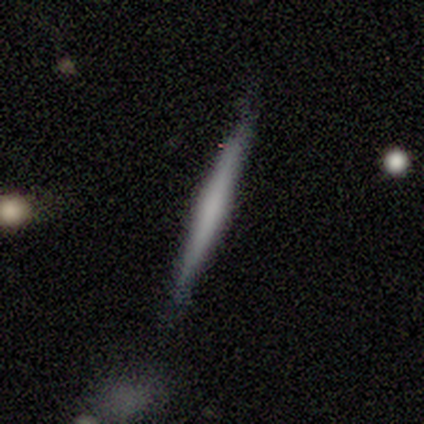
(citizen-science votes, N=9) This appears to be a featured or disk galaxy (44%) viewed edge-on (100%) with a rounded central bulge (75%). Merging: none (57%).